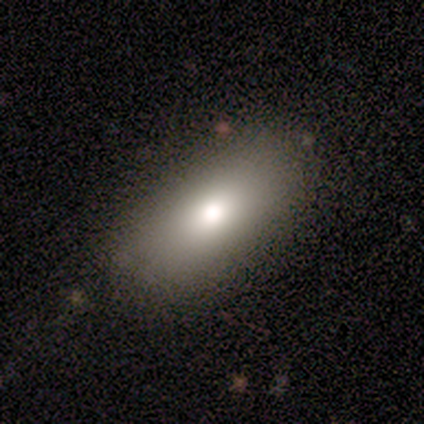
Volunteers were most divided on "merging": none: 75%, minor disturbance: 25%, major disturbance: 0%, merger: 0%. More confident: smooth or featured — smooth (100%); how rounded — in between (100%).